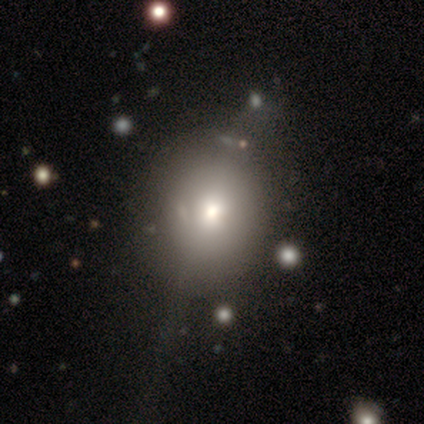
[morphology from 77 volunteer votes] smooth 49%, featured or disk 27%, star or artifact 23%. Down the decision tree: how rounded — round (55%); merging — minor disturbance (20%).